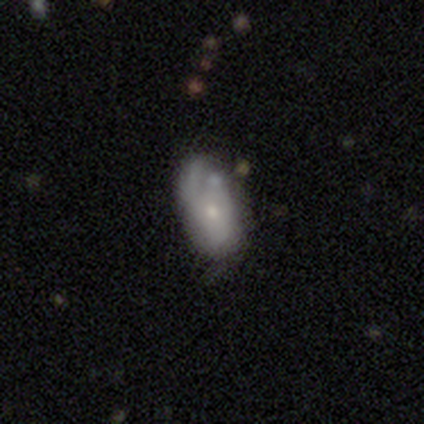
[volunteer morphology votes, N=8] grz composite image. It shows a smooth galaxy with no disk features (62%) that is in between round and cigar-shaped (100%). Merging: minor disturbance (62%).